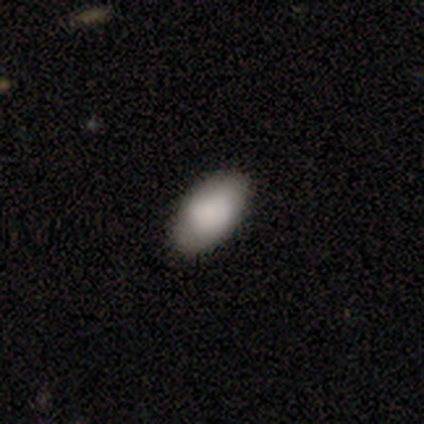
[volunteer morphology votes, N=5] Smooth or featured?
  - smooth: 80% *
  - featured or disk: 20%
  - star or artifact: 0%
How rounded?
  - in between: 100% *
  - round: 0%
  - cigar-shaped: 0%
Merging?
  - none: 80% *
  - merger: 20%
  - minor disturbance: 0%
  - major disturbance: 0%